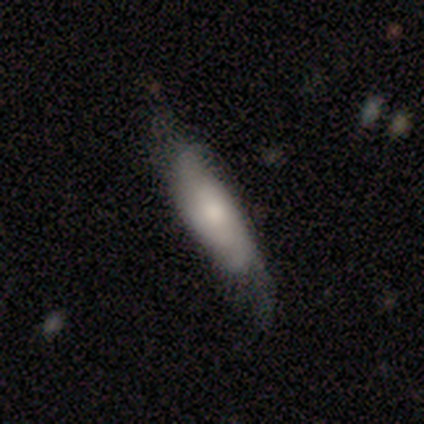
Overall: smooth (80%). How rounded: cigar-shaped (75%). Merging: none (60%; minor disturbance 20%).